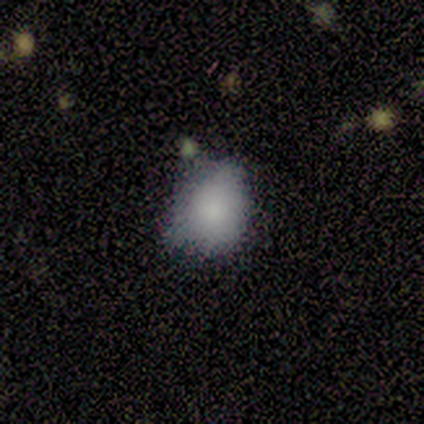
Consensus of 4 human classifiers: This is clearly a smooth galaxy (100%). How rounded: likely in between (75%). Merging: clearly none (100%).